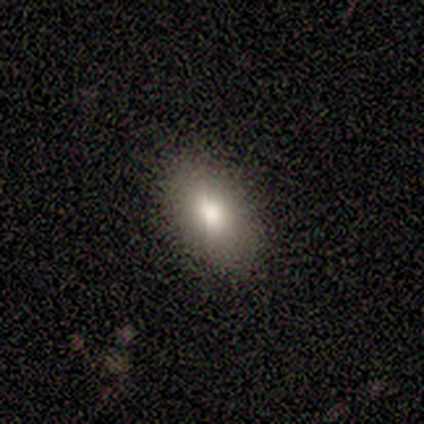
smooth 75%, star or artifact 25%, featured or disk 0%. Down the decision tree: how rounded — in between (100%); merging — none (100%).